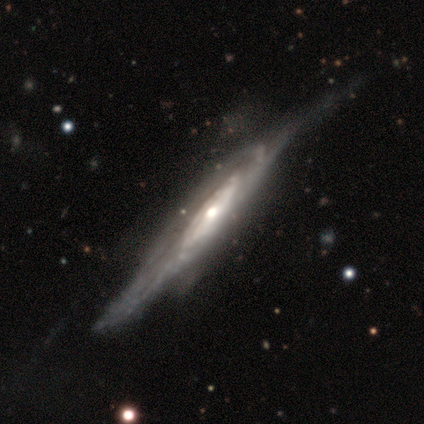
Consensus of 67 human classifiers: Smooth or featured? 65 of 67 (97%) said featured or disk. Edge-on disk? 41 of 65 (63%) said yes. Edge-on bulge? 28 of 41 (68%) said rounded. Merging? 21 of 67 (31%) said minor disturbance.